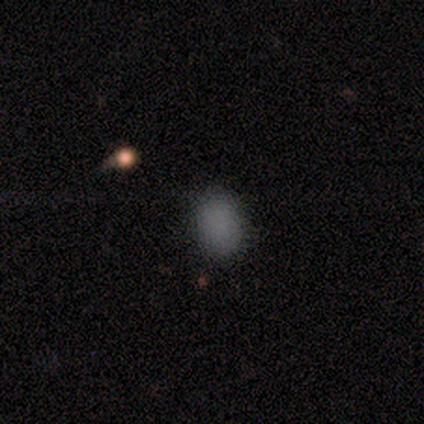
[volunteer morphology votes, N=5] smooth_or_featured: smooth (p=1.00)
how_rounded: in between (p=0.60) [alt: round p=0.40]
merging: none (p=1.00)